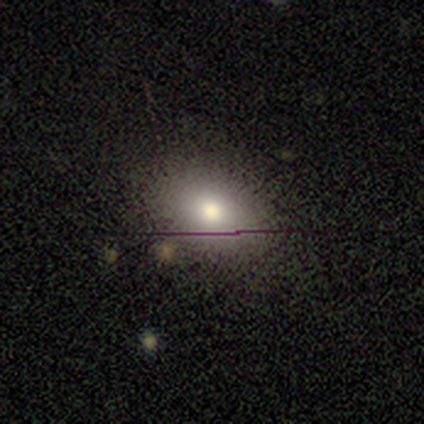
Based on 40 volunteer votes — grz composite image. It shows a smooth galaxy with no disk features (80%) that is in between round and cigar-shaped (84%). Merging: none (81%).